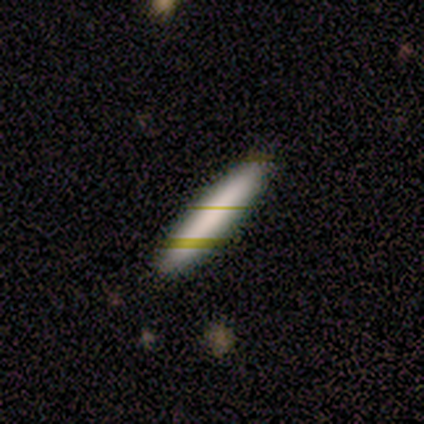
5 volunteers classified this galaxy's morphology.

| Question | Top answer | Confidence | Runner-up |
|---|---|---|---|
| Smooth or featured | smooth | 80% | featured or disk (20%) |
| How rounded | cigar-shaped | 100% | — |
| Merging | none | 100% | — |